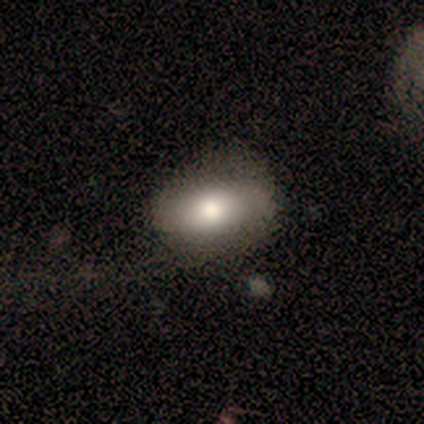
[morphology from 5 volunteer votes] Overall: smooth (60%; featured or disk 40%). How rounded: in between (100%). Merging: none (40%, tied with major disturbance).